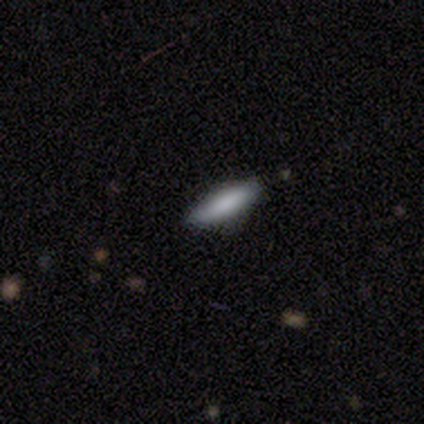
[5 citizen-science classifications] Morphology: type=smooth (80%); roundness=in between (75%); merging=none (100%).